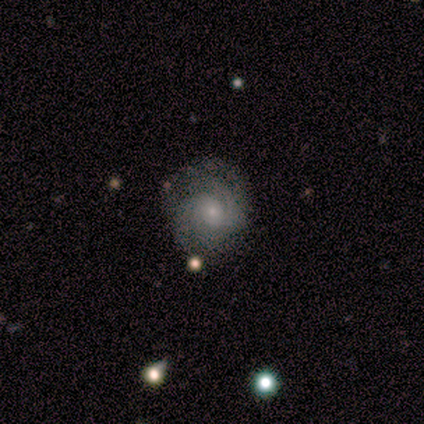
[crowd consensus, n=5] Volunteers were most divided on "spiral arm count" (2-way tie): 3: 40%, 4: 40%, can't tell: 20%, 1: 0%, 2: 0%, more than 4: 0%; "bulge size" (2-way tie): moderate: 40%, small: 40%, none: 20%, dominant: 0%, large: 0%. More confident: smooth or featured — featured or disk (100%); edge-on disk — no (100%); spiral arms — yes (100%); bar — no (60%); spiral winding — tight (60%); merging — none (60%).